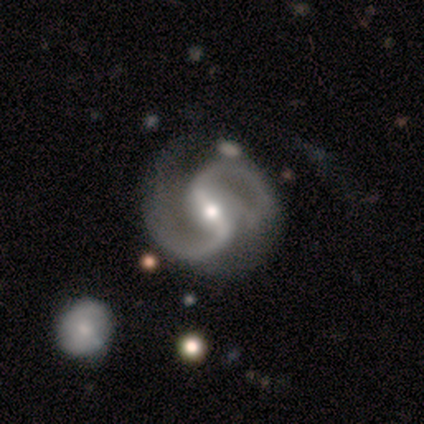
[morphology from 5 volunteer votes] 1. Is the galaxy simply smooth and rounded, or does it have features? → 100% featured or disk, 0% smooth, 0% star or artifact.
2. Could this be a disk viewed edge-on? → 100% no, 0% yes.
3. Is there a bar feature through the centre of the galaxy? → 100% strong, 0% weak, 0% no.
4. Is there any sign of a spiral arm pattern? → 100% yes, 0% no.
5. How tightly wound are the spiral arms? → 60% medium, 40% loose, 0% tight.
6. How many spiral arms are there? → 100% 2, 0% 1, 0% 3, 0% 4, 0% more than 4, 0% can't tell.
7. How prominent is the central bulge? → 80% moderate, 20% large, 0% dominant, 0% small, 0% none.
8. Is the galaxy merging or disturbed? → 40% none, 20% minor disturbance, 20% major disturbance, 20% merger.